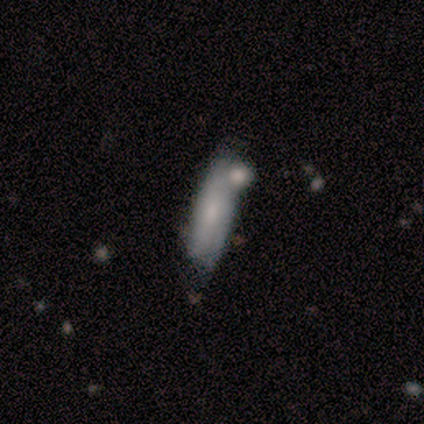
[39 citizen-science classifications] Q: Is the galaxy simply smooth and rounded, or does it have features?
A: smooth — 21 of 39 (54%).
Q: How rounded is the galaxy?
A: cigar-shaped — 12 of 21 (57%).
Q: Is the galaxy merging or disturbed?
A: merger — 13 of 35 (37%).